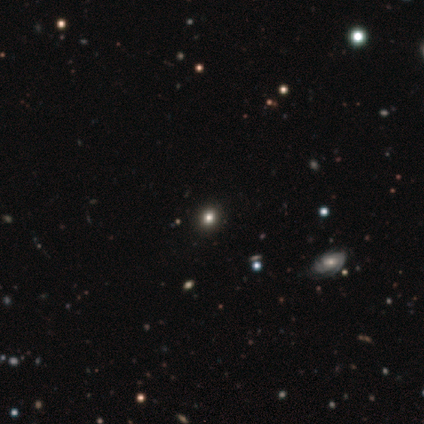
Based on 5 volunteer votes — smooth-or-featured: smooth: 60% | star or artifact: 40% | featured or disk: 0%
  how-rounded: round: 100% | in between: 0% | cigar-shaped: 0%
  merging: none: 100% | minor disturbance: 0% | major disturbance: 0% | merger: 0%